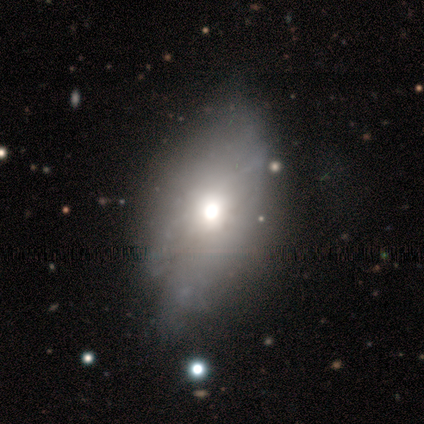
featured or disk 60%, smooth 20%, star or artifact 20%. Down the decision tree: edge-on disk — no (67%); bar — no (100%); spiral arms — no (100%); bulge size — moderate (100%); merging — none (75%).